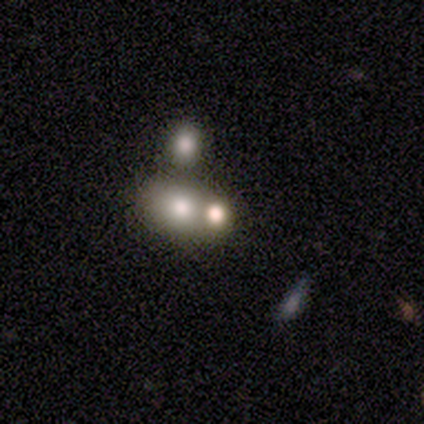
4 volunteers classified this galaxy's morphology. Smooth or featured? smooth (50%, tied with featured or disk)
How rounded? round (100%)
Merging? merger (50%)